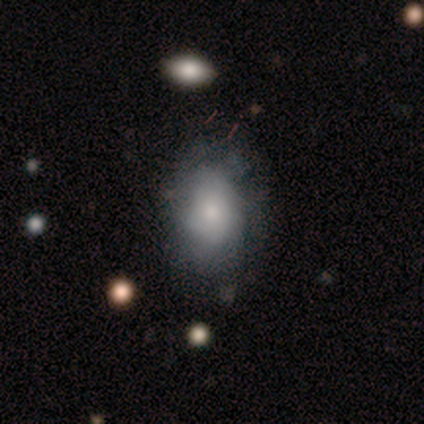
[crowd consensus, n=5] Smooth or featured?
  - smooth: 80% *
  - featured or disk: 20%
  - star or artifact: 0%
How rounded?
  - in between: 100% *
  - round: 0%
  - cigar-shaped: 0%
Merging?
  - none: 60% *
  - major disturbance: 40%
  - minor disturbance: 0%
  - merger: 0%